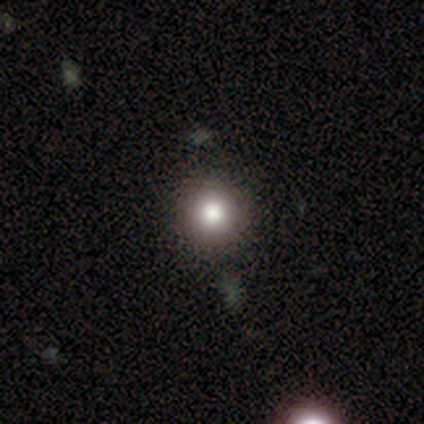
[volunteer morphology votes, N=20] A smooth galaxy with no disk features (75%) that is round (100%).

Vote fractions:
- Smooth or featured? smooth: 75% / star or artifact: 20% / featured or disk: 5%
- How rounded? round: 100% / in between: 0% / cigar-shaped: 0%
- Merging? none: 94% / minor disturbance: 6% / major disturbance: 0% / merger: 0%